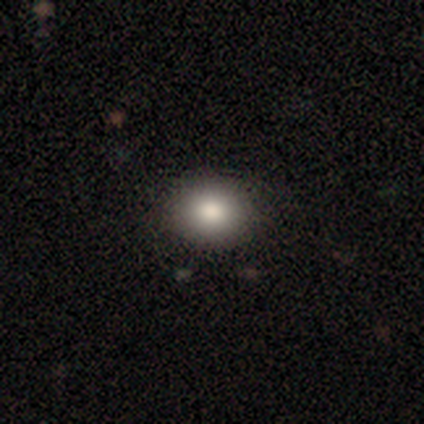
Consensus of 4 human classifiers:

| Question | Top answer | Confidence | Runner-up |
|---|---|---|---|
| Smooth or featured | smooth | 100% | — |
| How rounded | round | 100% | — |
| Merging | none | 100% | — |